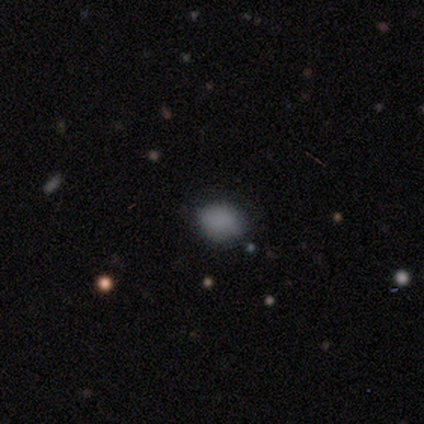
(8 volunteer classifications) Smooth or featured? 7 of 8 (88%) said smooth. How rounded? 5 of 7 (71%) said round. Merging? 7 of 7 (100%) said none.